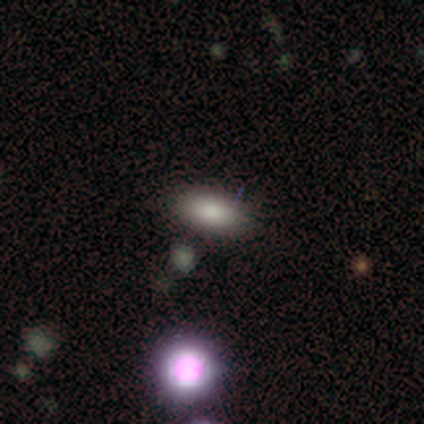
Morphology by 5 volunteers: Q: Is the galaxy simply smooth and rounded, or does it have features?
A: smooth — 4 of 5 (80%).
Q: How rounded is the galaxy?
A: in between — 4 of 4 (100%).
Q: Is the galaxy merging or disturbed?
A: none — 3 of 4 (75%).